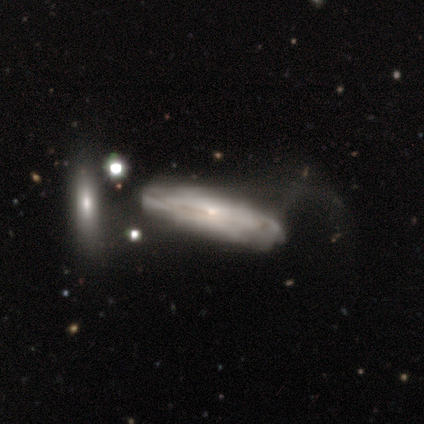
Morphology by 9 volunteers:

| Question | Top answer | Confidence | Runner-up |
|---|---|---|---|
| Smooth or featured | featured or disk | 89% | star or artifact (11%) |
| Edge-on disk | yes | 62% | no (38%) |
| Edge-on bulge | boxy | 60% | rounded (40%) |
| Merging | none | 38% | tied: major disturbance (38%) |